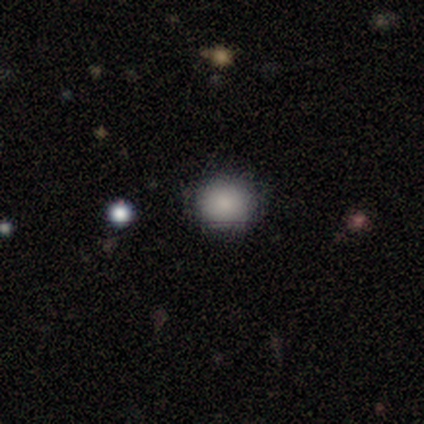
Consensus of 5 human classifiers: Overall: smooth (60%; star or artifact 40%). How rounded: round (67%; in between 33%). Merging: none (67%; minor disturbance 33%).